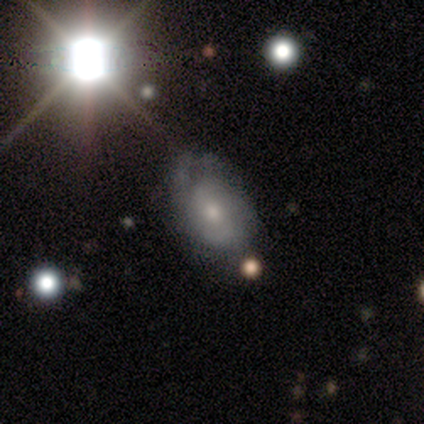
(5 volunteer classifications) Smooth or featured? featured or disk (60%)
Edge-on disk? no (100%)
Bar? weak (67%)
Spiral arms? yes (67%)
Spiral winding? medium (50%, tied with loose)
Spiral arm count? can't tell (100%)
Bulge size? small (100%)
Merging? none (40%, tied with minor disturbance)